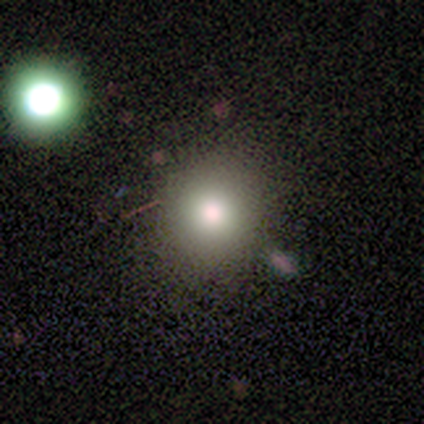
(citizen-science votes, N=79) Smooth or featured: smooth — 82% (star or artifact — 11%)
How rounded: round — 86% (in between — 14%)
Merging: none — 43% (minor disturbance — 3%)